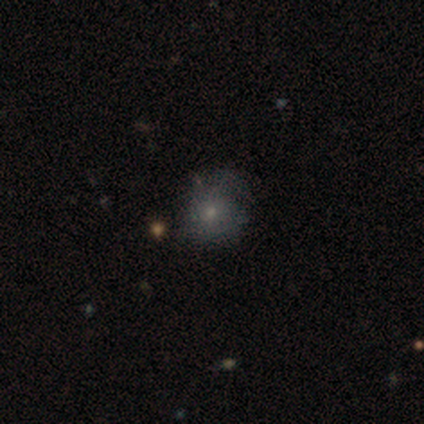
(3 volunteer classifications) A smooth galaxy with no disk features (67%) that is round (100%). Merging: none (67%).